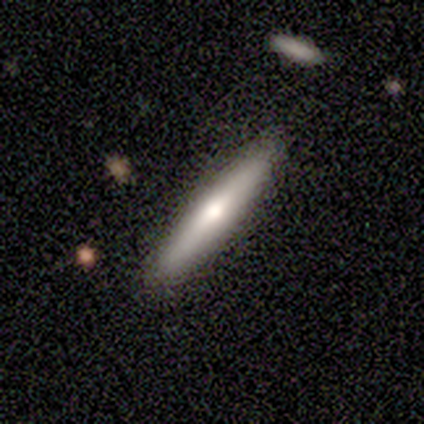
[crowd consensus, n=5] Smooth or featured: featured or disk — 40% (tied with star or artifact — 40%)
Edge-on disk: yes — 100%
Edge-on bulge: none — 50% (tied with rounded — 50%)
Merging: none — 67% (minor disturbance — 33%)